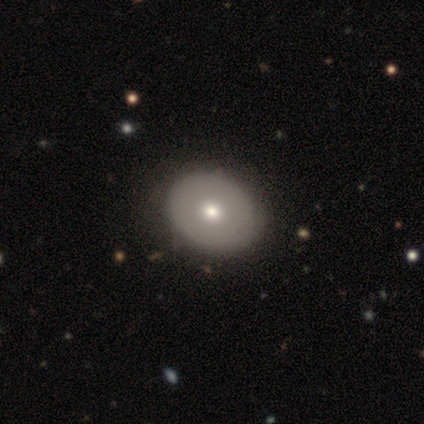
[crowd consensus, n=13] Smooth or featured: smooth — 62% (star or artifact — 23%)
How rounded: round — 50% (tied with in between — 50%)
Merging: none — 60% (minor disturbance — 30%)